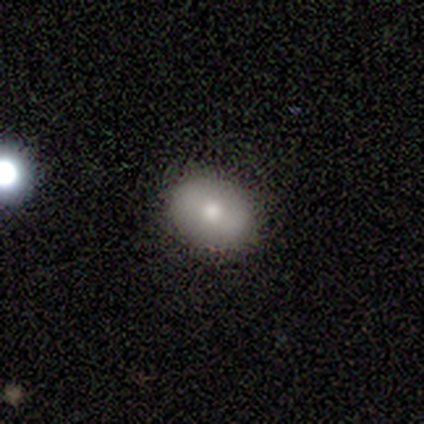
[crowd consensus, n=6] Smooth or featured?
  - smooth: 83% *
  - featured or disk: 17%
  - star or artifact: 0%
How rounded?
  - in between: 100% *
  - round: 0%
  - cigar-shaped: 0%
Merging?
  - none: 100% *
  - minor disturbance: 0%
  - major disturbance: 0%
  - merger: 0%